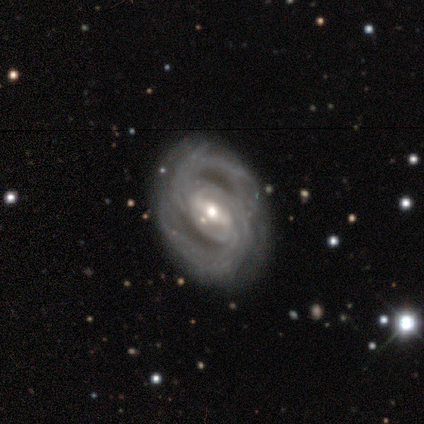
Morphology: type=featured or disk (100%); edge-on=no (100%); bar=strong (57%); spiral arms=yes (71%); winding=tight (60%); arm count=2 (80%); bulge=moderate (57%); merging=none (43%, tied with minor disturbance).